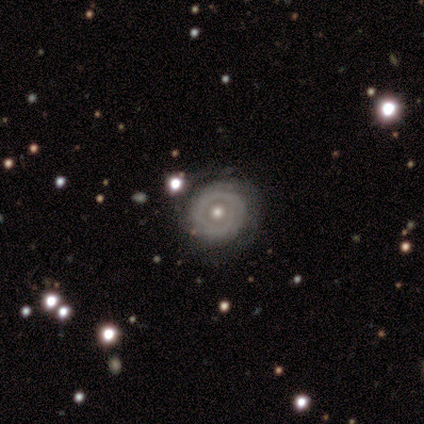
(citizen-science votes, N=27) A featured or disk galaxy (78%) with no bar (95%), tight (71%) spiral arms (67%) and a moderate central bulge (76%). Merging: none (77%).